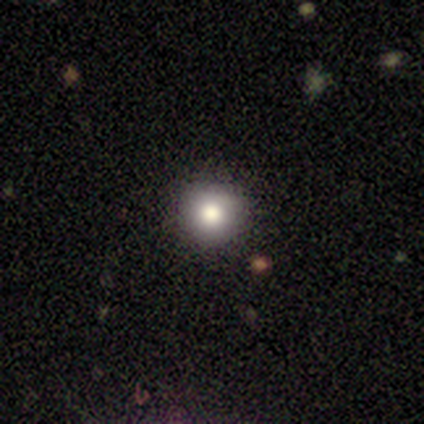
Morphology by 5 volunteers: smooth_or_featured: smooth (p=0.60) [alt: star or artifact p=0.40]
how_rounded: round (p=1.00)
merging: none (p=1.00)